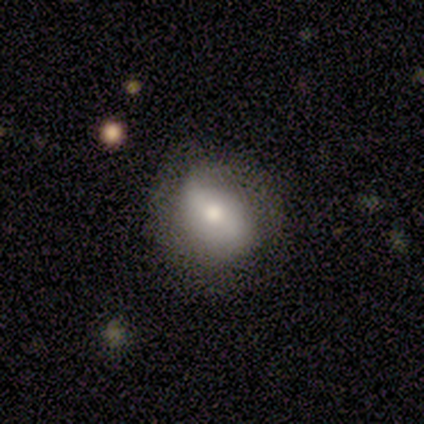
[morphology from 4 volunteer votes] Overall: featured or disk (75%). Edge-on disk: no (100%). Bar: strong (33%, tied with weak and no). Spiral arms: yes (100%). Spiral arm count: 2 (100%). Spiral winding: medium (67%; loose 33%). Bulge size: moderate (67%; large 33%). Merging: none (100%).